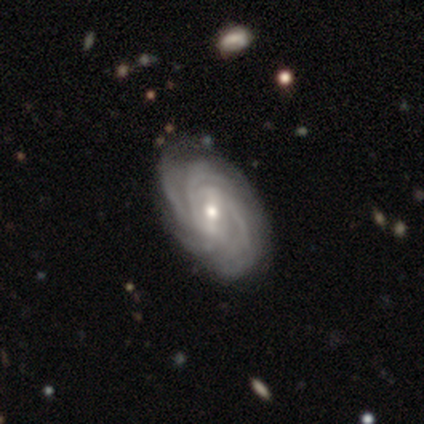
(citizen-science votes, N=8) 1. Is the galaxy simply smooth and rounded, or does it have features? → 88% featured or disk, 12% smooth, 0% star or artifact.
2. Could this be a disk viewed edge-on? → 100% no, 0% yes.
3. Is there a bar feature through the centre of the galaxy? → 86% weak, 14% strong, 0% no.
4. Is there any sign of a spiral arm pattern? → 100% yes, 0% no.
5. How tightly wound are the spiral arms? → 71% tight, 29% medium, 0% loose.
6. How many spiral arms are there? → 29% 4 (tied), 29% can't tell (tied), 14% 2, 14% 3, 14% more than 4, 0% 1.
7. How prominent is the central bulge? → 57% moderate, 43% small, 0% dominant, 0% large, 0% none.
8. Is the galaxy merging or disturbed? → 75% none, 12% minor disturbance, 12% merger, 0% major disturbance.